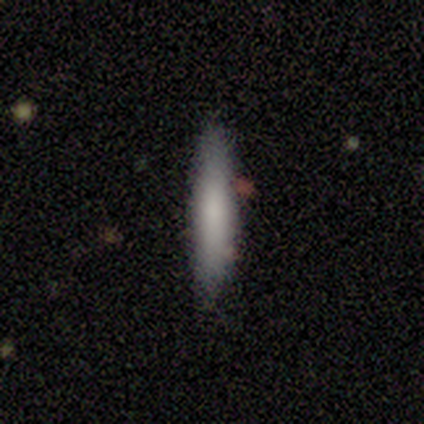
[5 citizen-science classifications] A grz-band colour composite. It shows a smooth galaxy with no disk features (100%) that is cigar-shaped (80%). Merging: none (80%).